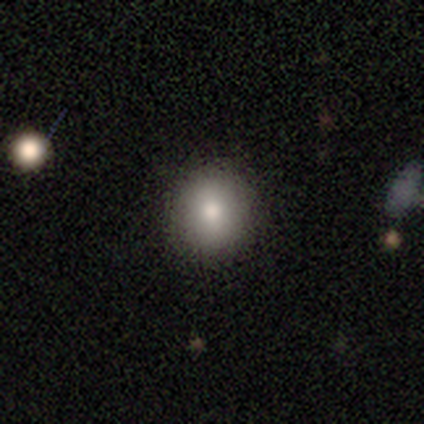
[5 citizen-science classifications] Overall: smooth (80%). How rounded: round (100%). Merging: none (100%).